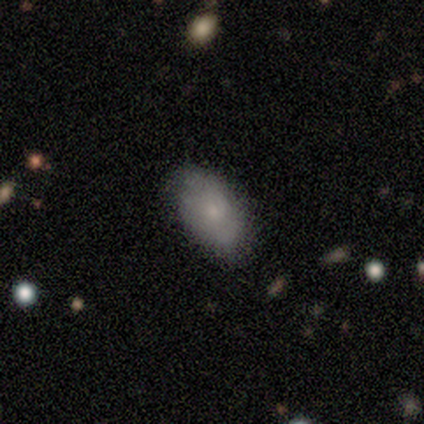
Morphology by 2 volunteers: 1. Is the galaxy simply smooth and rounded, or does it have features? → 100% smooth, 0% featured or disk, 0% star or artifact.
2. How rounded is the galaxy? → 100% in between, 0% round, 0% cigar-shaped.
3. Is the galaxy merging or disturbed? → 100% none, 0% minor disturbance, 0% major disturbance, 0% merger.